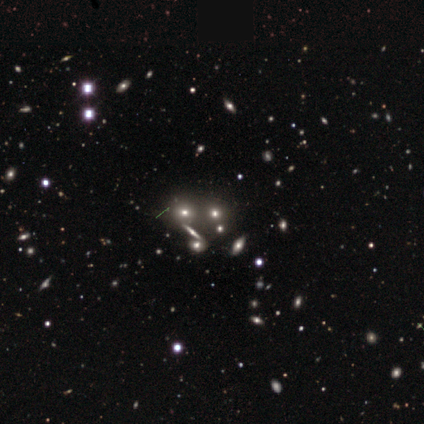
Morphology: type=smooth (60%); roundness=round (100%); merging=none (80%).